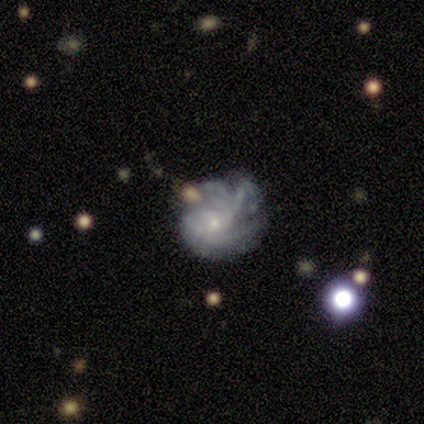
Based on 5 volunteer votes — This is likely a featured or disk galaxy (60%). It is clearly not viewed edge-on (100%). Bar: clearly no (100%). Spiral arm pattern: clearly yes (100%). Spiral arm count: likely can't tell (67%). Spiral winding: likely medium (67%). Central bulge: likely small (67%). Merging: possibly minor disturbance (50%).